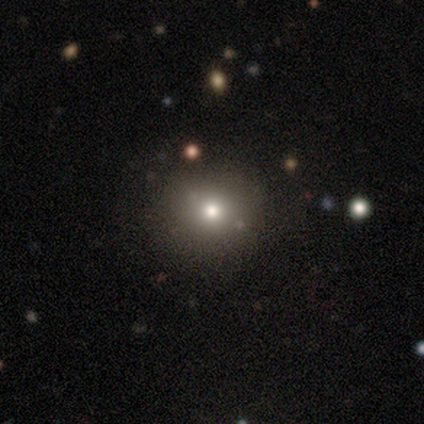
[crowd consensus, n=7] smooth 100%, featured or disk 0%, star or artifact 0%. Down the decision tree: how rounded — round (86%); merging — none (71%).